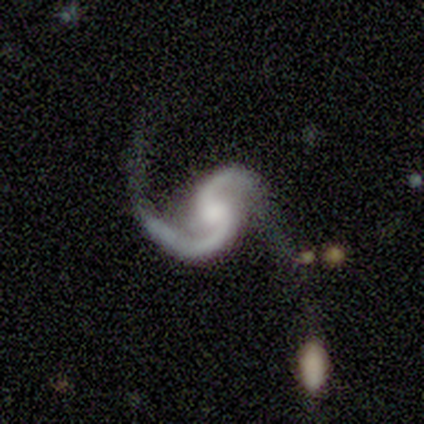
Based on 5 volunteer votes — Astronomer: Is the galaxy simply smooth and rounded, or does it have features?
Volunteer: featured or disk — 100%.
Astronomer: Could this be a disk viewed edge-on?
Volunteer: no — 100%.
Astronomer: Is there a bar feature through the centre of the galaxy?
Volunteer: no — 80%.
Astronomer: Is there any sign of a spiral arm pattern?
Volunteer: yes — 100%.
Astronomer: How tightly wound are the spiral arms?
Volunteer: medium — 60% (runner-up: loose, 40%).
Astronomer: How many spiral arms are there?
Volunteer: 2 — 80%.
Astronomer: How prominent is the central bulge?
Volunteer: moderate — 40%, tied with small at 40%.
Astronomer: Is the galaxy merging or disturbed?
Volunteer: merger — 40% (runner-up: none, 20%).